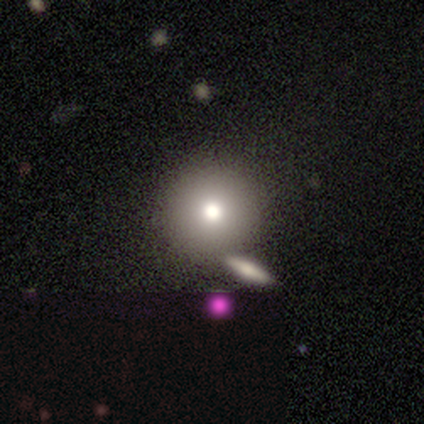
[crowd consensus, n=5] smooth-or-featured: smooth: 80% | star or artifact: 20% | featured or disk: 0%
  how-rounded: round: 100% | in between: 0% | cigar-shaped: 0%
  merging: none: 75% | minor disturbance: 25% | major disturbance: 0% | merger: 0%